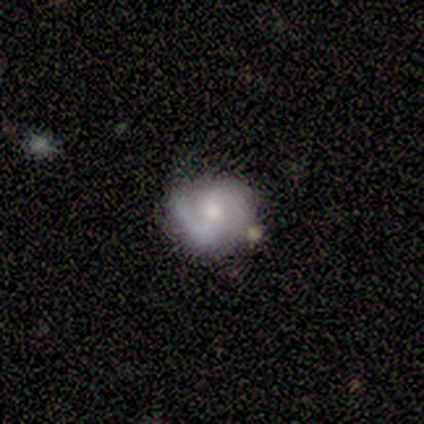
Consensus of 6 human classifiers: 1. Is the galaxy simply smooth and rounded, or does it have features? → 67% featured or disk, 17% smooth, 17% star or artifact.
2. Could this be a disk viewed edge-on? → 100% no, 0% yes.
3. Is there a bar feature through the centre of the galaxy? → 50% weak (tied), 50% no (tied), 0% strong.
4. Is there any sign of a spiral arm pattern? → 75% yes, 25% no.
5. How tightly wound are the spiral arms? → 33% tight (tied), 33% medium (tied), 33% loose (tied).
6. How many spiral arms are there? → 100% 2, 0% 1, 0% 3, 0% 4, 0% more than 4, 0% can't tell.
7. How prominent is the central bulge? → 25% dominant (tied), 25% moderate (tied), 25% small (tied), 25% none (tied), 0% large.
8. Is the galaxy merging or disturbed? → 80% none, 20% minor disturbance, 0% major disturbance, 0% merger.